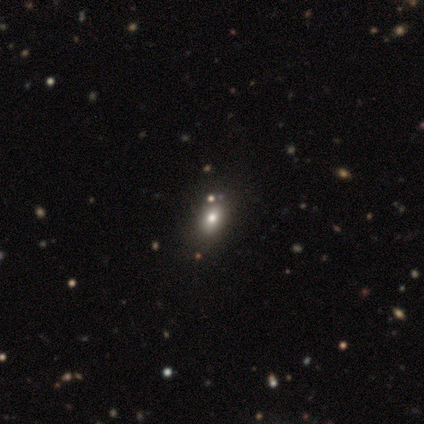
Smooth or featured? 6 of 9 (67%) said smooth. How rounded? 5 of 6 (83%) said in between. Merging? 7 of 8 (88%) said none.